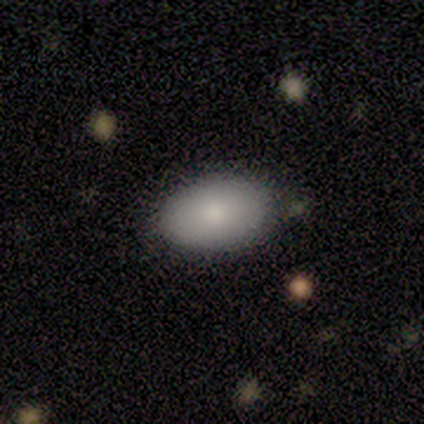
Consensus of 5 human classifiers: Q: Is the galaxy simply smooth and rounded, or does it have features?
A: smooth — 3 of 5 (60%).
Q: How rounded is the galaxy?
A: in between — 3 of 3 (100%).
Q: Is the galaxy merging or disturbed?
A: none — 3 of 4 (75%).